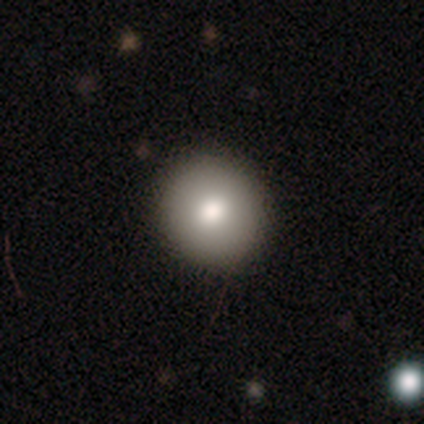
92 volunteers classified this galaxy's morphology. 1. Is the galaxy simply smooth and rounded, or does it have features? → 83% smooth, 10% featured or disk, 8% star or artifact.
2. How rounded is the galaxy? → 92% round, 5% in between, 3% cigar-shaped.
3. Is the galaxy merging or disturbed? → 94% none, 5% minor disturbance, 1% merger, 0% major disturbance.